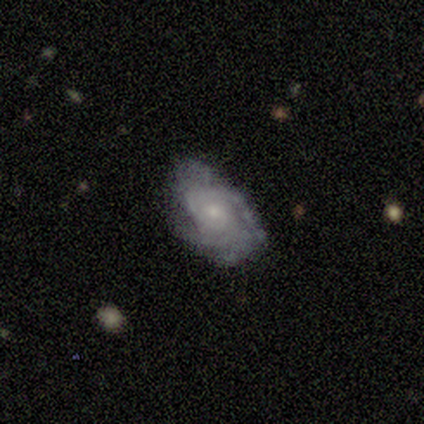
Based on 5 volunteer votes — Overall: featured or disk (100%). Edge-on disk: no (100%). Bar: no (60%; weak 40%). Spiral arms: yes (80%). Spiral arm count: 4 (50%; 3 25%). Spiral winding: tight (50%, tied with medium). Bulge size: moderate (60%; small 40%). Merging: none (60%; minor disturbance 40%).